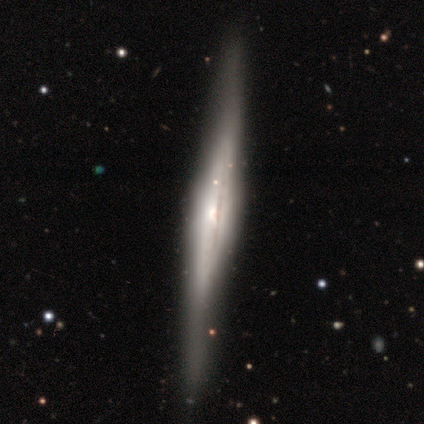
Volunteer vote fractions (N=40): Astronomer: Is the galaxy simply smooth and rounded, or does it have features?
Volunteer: featured or disk — 78%.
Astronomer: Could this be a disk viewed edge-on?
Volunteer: yes — 94%.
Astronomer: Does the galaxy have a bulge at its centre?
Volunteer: rounded — 79%.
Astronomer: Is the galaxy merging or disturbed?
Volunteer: none — 85%.